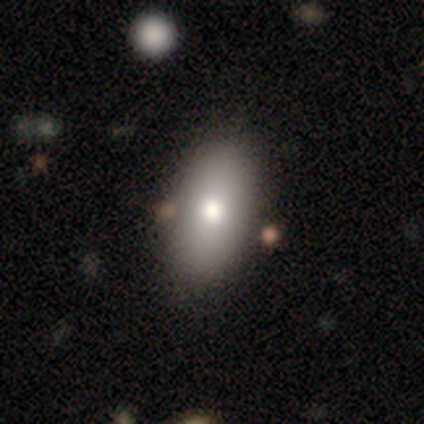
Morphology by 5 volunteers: type=smooth (80%); roundness=in between (100%); merging=none (60%).